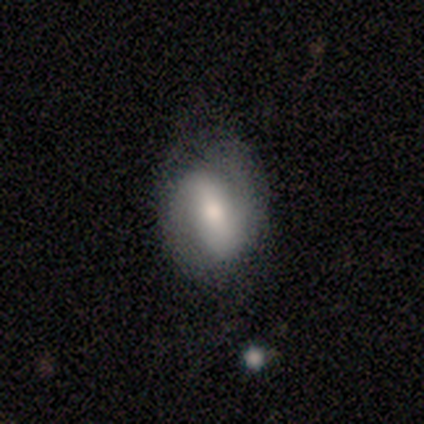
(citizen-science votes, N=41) Morphology: type=featured or disk (68%); edge-on=no (100%); bar=strong (64%); spiral arms=yes (82%); winding=tight (39%, tied with medium); arm count=2 (100%); bulge=moderate (43%); merging=none (71%).